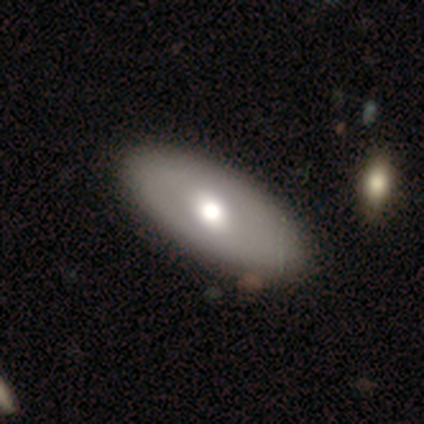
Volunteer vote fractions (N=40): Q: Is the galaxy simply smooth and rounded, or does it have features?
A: smooth — 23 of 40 (57%).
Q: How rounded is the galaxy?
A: in between — 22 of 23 (96%).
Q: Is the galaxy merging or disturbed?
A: none — 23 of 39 (59%).